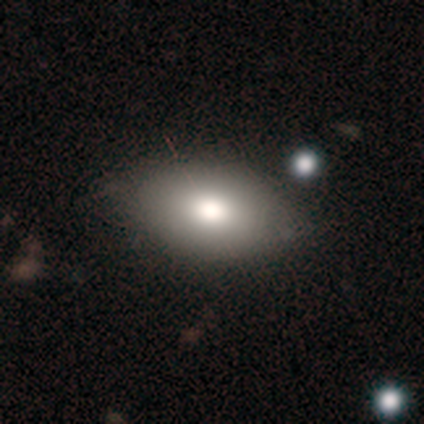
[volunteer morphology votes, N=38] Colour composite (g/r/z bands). It shows a smooth galaxy with no disk features (79%) that is in between round and cigar-shaped (97%). Merging: none (86%).